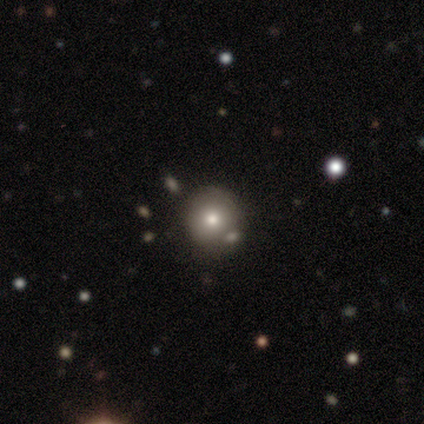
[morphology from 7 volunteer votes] smooth 86%, featured or disk 14%, star or artifact 0%. Down the decision tree: how rounded — round (100%); merging — none (86%).